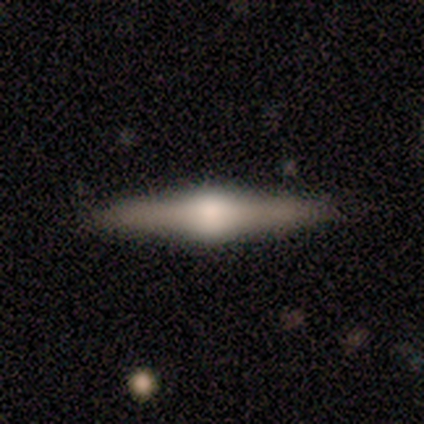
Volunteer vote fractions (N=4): smooth_or_featured: featured or disk (p=0.75) [alt: smooth p=0.25]
disk_edge_on: yes (p=1.00)
edge_on_bulge: rounded (p=1.00)
merging: none (p=1.00)